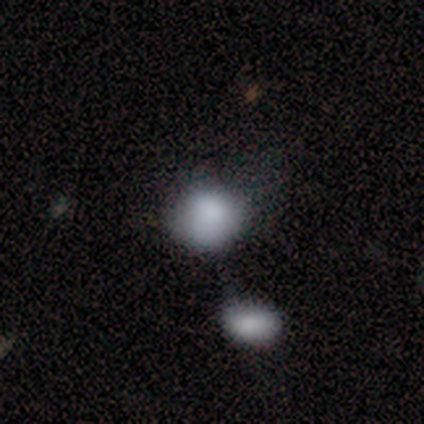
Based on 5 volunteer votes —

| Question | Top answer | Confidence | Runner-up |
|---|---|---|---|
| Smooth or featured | smooth | 100% | — |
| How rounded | round | 60% | in between (40%) |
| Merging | none | 40% | tied: minor disturbance (40%) |